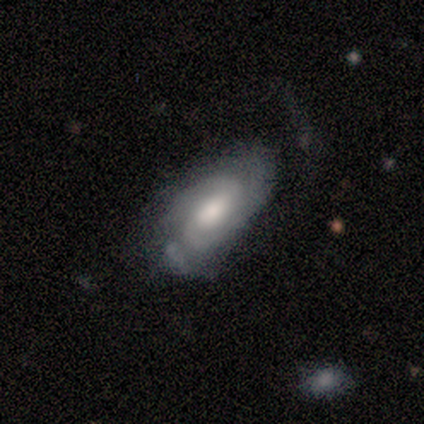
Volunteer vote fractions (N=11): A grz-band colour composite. It shows a featured or disk galaxy (73%) with a weak bar (50%), 2 (38%) tight (50%, tied with medium) spiral arms (100%) and a moderate central bulge (62%). Merging: none (64%).